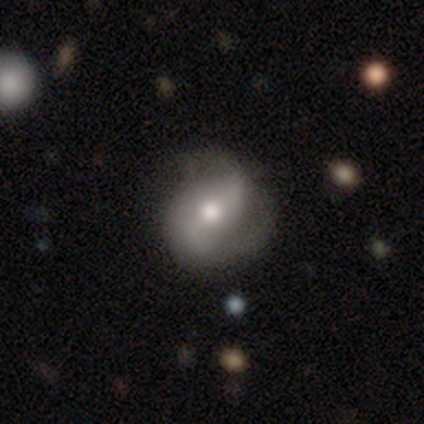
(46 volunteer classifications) Smooth or featured? featured or disk (63%)
Edge-on disk? no (90%)
Bar? no (54%)
Spiral arms? yes (81%)
Spiral winding? medium (48%)
Spiral arm count? 2 (86%)
Bulge size? moderate (73%)
Merging? none (67%)